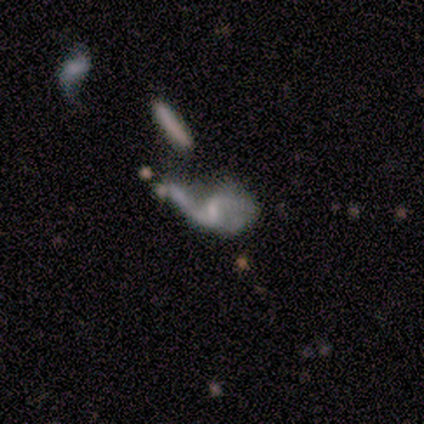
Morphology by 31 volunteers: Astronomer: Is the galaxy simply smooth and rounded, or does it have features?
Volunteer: featured or disk — 77%.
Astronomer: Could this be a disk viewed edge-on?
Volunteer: no — 100%.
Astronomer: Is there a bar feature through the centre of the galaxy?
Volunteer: no — 54% (runner-up: weak, 38%).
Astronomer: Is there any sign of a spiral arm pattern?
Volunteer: yes — 58% (runner-up: no, 42%).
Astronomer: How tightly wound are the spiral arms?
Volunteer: loose — 79%.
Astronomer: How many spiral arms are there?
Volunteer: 2 — 79%.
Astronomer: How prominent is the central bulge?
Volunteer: small — 54% (runner-up: none, 33%).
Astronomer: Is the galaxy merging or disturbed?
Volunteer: major disturbance — 35% (runner-up: merger, 31%).